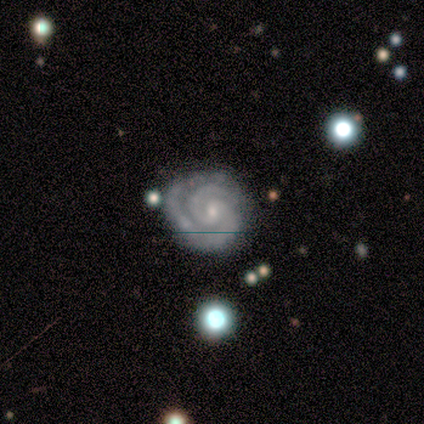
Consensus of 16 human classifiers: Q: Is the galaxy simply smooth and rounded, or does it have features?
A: featured or disk — 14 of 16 (88%).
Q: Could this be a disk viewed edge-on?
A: no — 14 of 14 (100%).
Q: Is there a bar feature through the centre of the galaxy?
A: no — 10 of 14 (71%).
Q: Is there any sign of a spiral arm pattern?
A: yes — 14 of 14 (100%).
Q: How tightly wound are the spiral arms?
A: tight — 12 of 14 (86%).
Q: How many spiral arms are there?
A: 2 — 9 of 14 (64%).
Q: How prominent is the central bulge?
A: small — 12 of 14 (86%).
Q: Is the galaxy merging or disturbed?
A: none — 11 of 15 (73%).